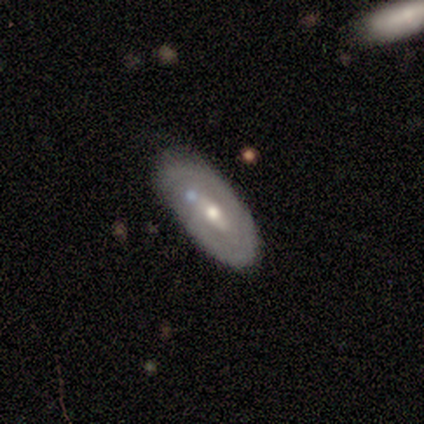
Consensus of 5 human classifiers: featured or disk 100%, smooth 0%, star or artifact 0%. Down the decision tree: edge-on disk — no (80%); bar — strong (50%); spiral arms — yes (50%, tied with no); spiral arm count — 1 (50%, tied with can't tell); spiral winding — tight (50%, tied with medium); bulge size — moderate (100%); merging — none (100%).